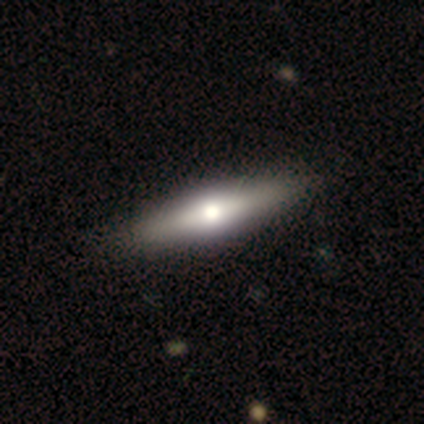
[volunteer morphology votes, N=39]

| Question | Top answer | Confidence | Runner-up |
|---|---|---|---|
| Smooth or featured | featured or disk | 51% | smooth (41%) |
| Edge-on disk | yes | 100% | — |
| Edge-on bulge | rounded | 85% | boxy (10%) |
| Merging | none | 83% | minor disturbance (14%) |